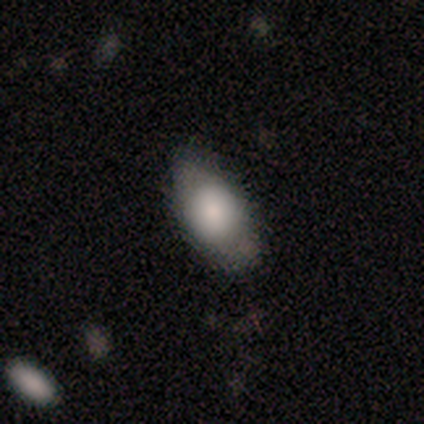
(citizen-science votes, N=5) Morphology: type=smooth (80%); roundness=in between (100%); merging=none (100%).